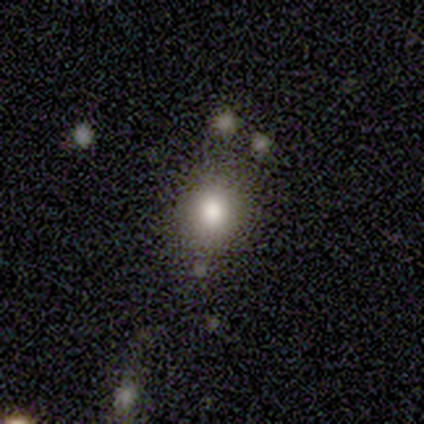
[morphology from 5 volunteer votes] smooth_or_featured: smooth (p=0.60) [alt: star or artifact p=0.40]
how_rounded: round (p=1.00)
merging: none (p=0.67) [alt: merger p=0.33]